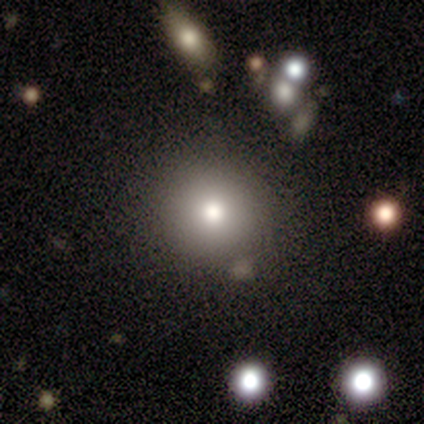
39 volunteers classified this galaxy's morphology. smooth_or_featured: smooth (p=0.62) [alt: featured or disk p=0.21]
how_rounded: round (p=0.92) [alt: in between p=0.08]
merging: none (p=0.88) [alt: merger p=0.09]